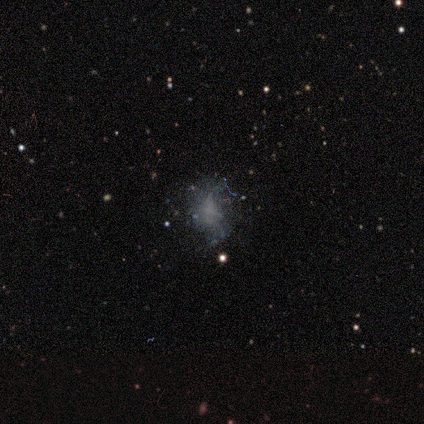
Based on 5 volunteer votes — Volunteers were most divided on "smooth or featured" (2-way tie): smooth: 40%, star or artifact: 40%, featured or disk: 20%; "merging" (3-way tie): none: 33%, minor disturbance: 33%, major disturbance: 33%, merger: 0%. More confident: how rounded — in between (100%).